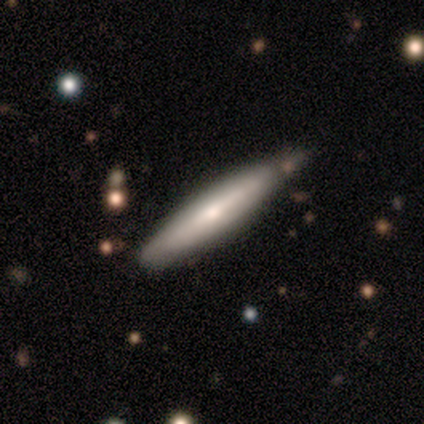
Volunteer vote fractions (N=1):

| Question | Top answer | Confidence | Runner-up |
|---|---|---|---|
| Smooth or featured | featured or disk | 100% | — |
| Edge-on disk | yes | 100% | — |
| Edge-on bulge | rounded | 100% | — |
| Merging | none | 100% | — |